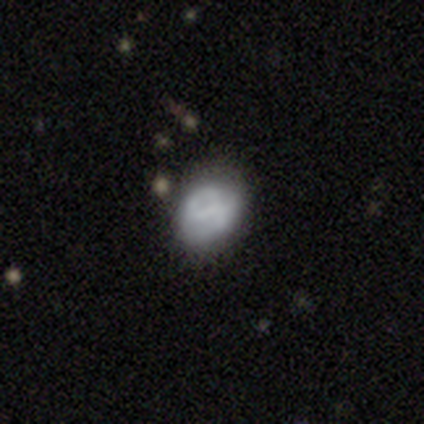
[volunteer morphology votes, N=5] featured or disk 60%, smooth 40%, star or artifact 0%. Down the decision tree: edge-on disk — no (100%); bar — weak (67%); spiral arms — yes (100%); spiral arm count — 2 (67%); spiral winding — tight (33%, tied with medium and loose); bulge size — none (67%); merging — none (100%).